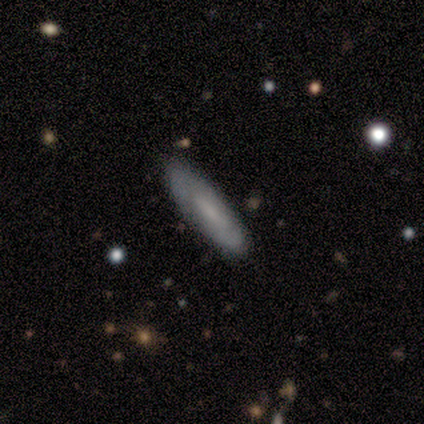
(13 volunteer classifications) This is possibly a featured or disk galaxy (54%). It is likely not viewed edge-on (71%). Bar: clearly weak (80%). Spiral arm pattern: likely no (60%). Central bulge: likely none (60%). Merging: clearly none (92%).